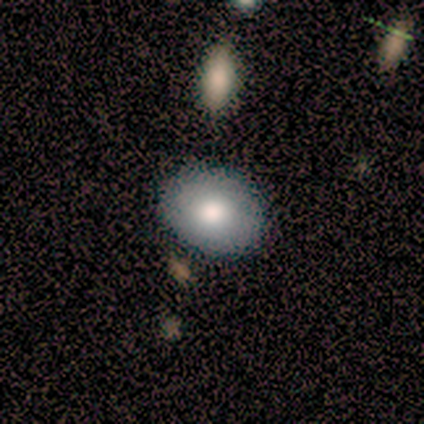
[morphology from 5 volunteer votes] Q: Smooth or featured?
A: smooth (60%); runner-up: featured or disk (40%)
Q: How rounded?
A: round (67%); runner-up: in between (33%)
Q: Merging?
A: none (100%)